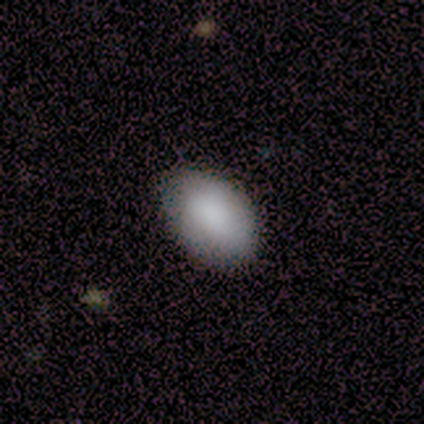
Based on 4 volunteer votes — Smooth or featured? 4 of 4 (100%) said smooth. How rounded? 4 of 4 (100%) said in between. Merging? 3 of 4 (75%) said none.